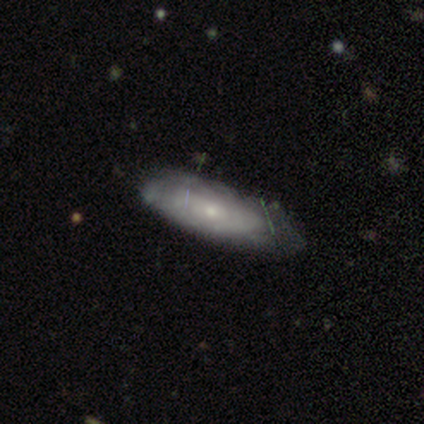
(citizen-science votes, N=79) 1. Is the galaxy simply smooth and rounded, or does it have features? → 58% featured or disk, 35% smooth, 6% star or artifact.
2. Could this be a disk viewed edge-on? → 89% no, 11% yes.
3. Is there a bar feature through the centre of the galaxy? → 90% no, 7% weak, 2% strong.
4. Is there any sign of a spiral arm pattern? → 66% yes, 34% no.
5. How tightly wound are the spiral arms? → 70% tight, 19% medium, 11% loose.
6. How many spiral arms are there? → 81% can't tell, 7% 3, 7% more than 4, 4% 1, 0% 2, 0% 4.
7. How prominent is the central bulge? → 80% small, 17% moderate, 2% none, 0% dominant, 0% large.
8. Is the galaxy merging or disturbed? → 32% none, 16% minor disturbance, 4% major disturbance, 1% merger.